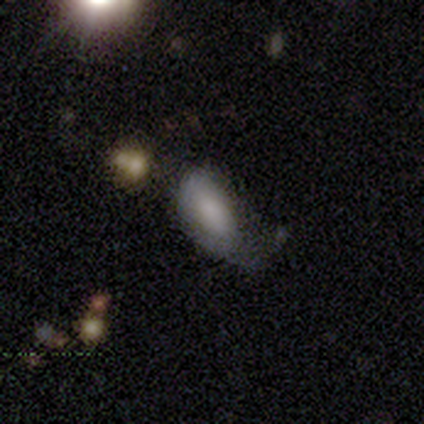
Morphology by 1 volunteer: type=smooth (100%); roundness=in between (100%); merging=minor disturbance (100%).